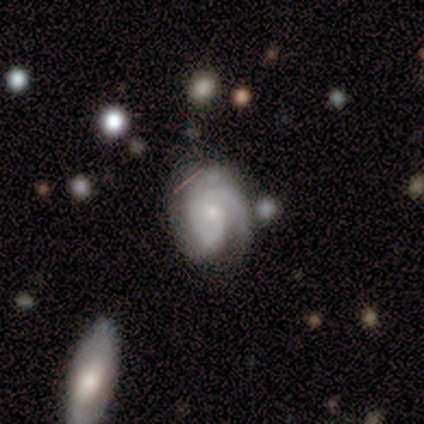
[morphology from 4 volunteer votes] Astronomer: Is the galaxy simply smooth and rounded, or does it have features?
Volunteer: featured or disk — 100%.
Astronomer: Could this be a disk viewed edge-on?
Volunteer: no — 100%.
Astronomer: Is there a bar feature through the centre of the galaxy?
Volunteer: weak — 50%, tied with no at 50%.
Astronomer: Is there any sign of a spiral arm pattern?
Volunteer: yes — 100%.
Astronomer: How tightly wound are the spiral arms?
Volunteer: tight — 75%.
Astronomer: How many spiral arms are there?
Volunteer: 2 — 50%.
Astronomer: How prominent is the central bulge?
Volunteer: small — 50%.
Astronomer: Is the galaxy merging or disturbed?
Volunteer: none — 50%.